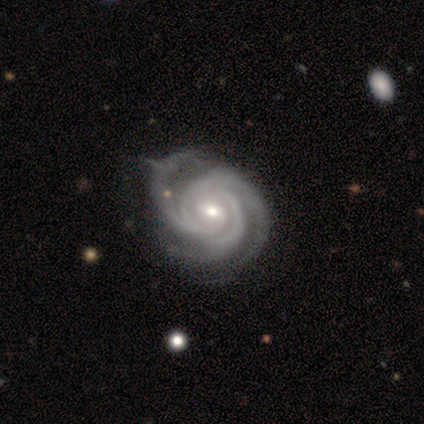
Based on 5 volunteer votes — Smooth or featured? featured or disk (100%)
Edge-on disk? no (100%)
Bar? weak (80%)
Spiral arms? yes (100%)
Spiral winding? tight (60%)
Spiral arm count? 3 (60%)
Bulge size? small (80%)
Merging? none (60%)